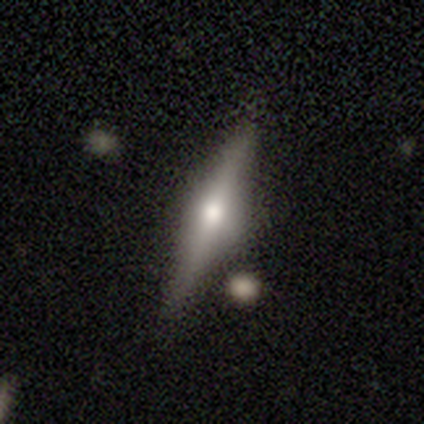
A featured or disk galaxy (59%) viewed edge-on (96%) with a rounded central bulge (82%).

Vote fractions:
- Smooth or featured? featured or disk: 59% / smooth: 31% / star or artifact: 10%
- Edge-on disk? yes: 96% / no: 4%
- Edge-on bulge? rounded: 82% / boxy: 9% / none: 9%
- Merging? none: 100% / minor disturbance: 0% / major disturbance: 0% / merger: 0%